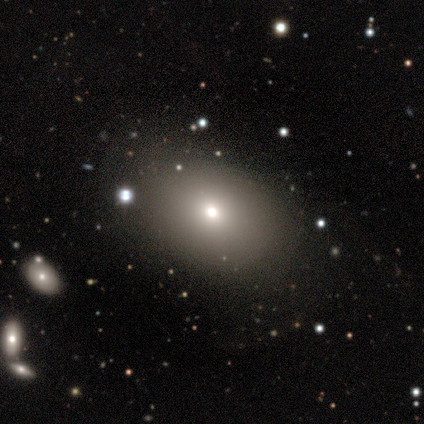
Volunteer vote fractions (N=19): Overall: smooth (63%). How rounded: in between (67%; round 33%). Merging: none (80%).